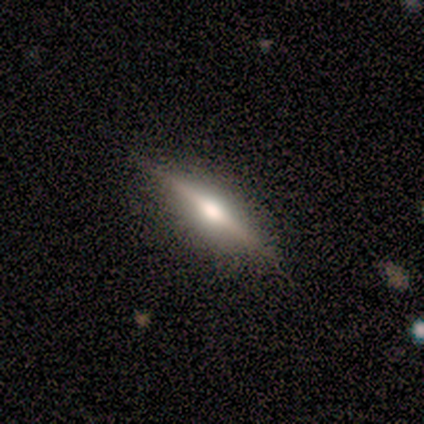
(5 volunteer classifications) Q: Smooth or featured?
A: featured or disk (80%); runner-up: smooth (20%)
Q: Edge-on disk?
A: yes (100%)
Q: Edge-on bulge?
A: rounded (75%); runner-up: boxy (25%)
Q: Merging?
A: none (80%); runner-up: minor disturbance (20%)